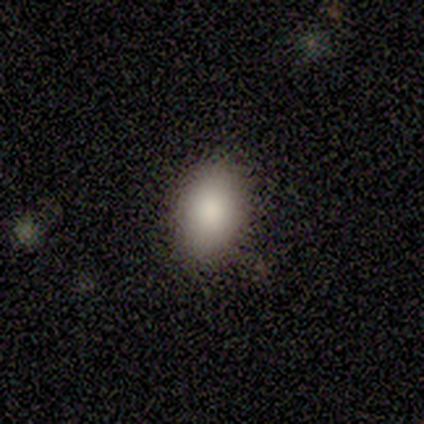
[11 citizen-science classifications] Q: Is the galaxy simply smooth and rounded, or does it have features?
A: smooth — 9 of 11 (82%).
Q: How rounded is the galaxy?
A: in between — 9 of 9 (100%).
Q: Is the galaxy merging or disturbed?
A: none — 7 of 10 (70%).